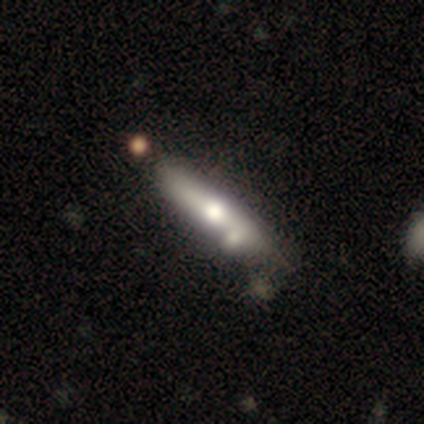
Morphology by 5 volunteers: Smooth or featured? 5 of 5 (100%) said featured or disk. Edge-on disk? 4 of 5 (80%) said yes. Edge-on bulge? 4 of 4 (100%) said rounded. Merging? 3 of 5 (60%) said merger.